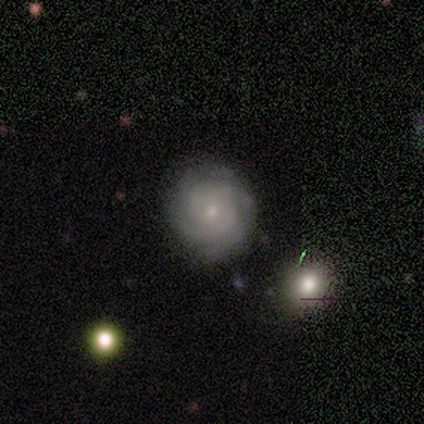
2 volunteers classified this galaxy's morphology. Smooth or featured? 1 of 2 (50%, tied with featured or disk) said smooth. How rounded? 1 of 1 (100%) said round. Merging? 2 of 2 (100%) said none.